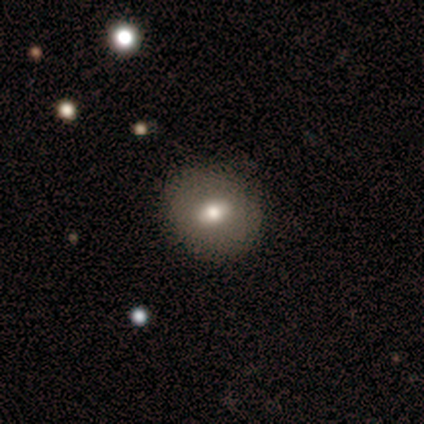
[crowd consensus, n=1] Overall: smooth (100%). How rounded: round (100%). Merging: none (100%).